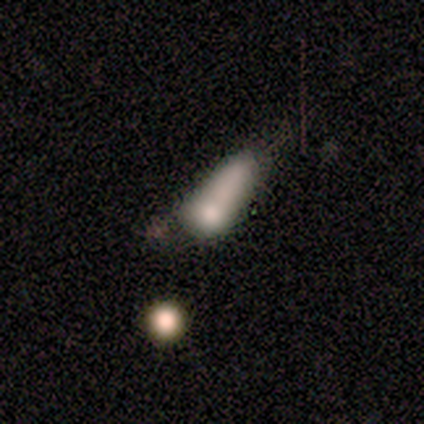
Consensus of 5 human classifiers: smooth 80%, featured or disk 20%, star or artifact 0%. Down the decision tree: how rounded — in between (50%, tied with cigar-shaped); merging — none (60%).